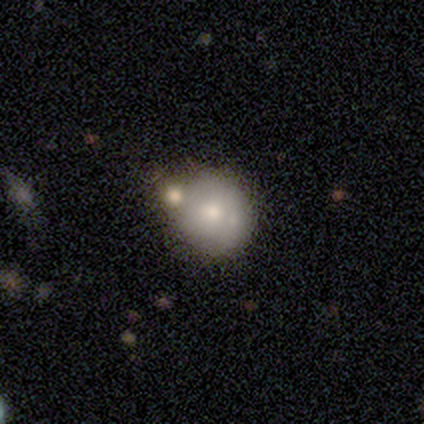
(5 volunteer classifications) This appears to be a smooth galaxy with no disk features (60%) that is round (100%). Merging: none (50%, tied with merger).